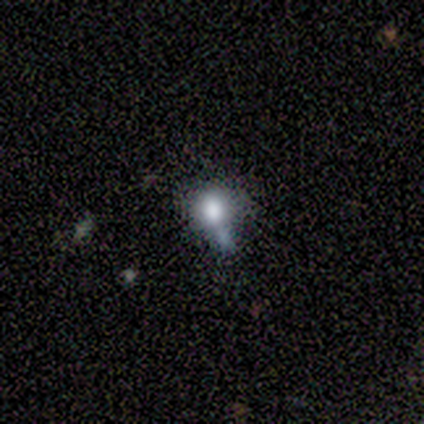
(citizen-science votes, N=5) Morphology: type=smooth (80%); roundness=in between (75%); merging=none (40%, tied with minor disturbance).